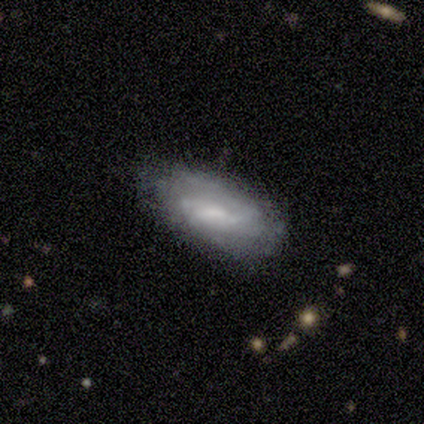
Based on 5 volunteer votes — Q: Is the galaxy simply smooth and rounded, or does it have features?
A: featured or disk — 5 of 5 (100%).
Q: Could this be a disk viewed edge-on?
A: no — 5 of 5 (100%).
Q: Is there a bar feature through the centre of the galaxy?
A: no — 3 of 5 (60%).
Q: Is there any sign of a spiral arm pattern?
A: yes — 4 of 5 (80%).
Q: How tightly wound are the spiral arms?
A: tight — 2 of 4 (50%).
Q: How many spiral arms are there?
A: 2 — 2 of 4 (50%, tied with can't tell).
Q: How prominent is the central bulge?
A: moderate — 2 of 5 (40%, tied with small).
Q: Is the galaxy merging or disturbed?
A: none — 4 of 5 (80%).